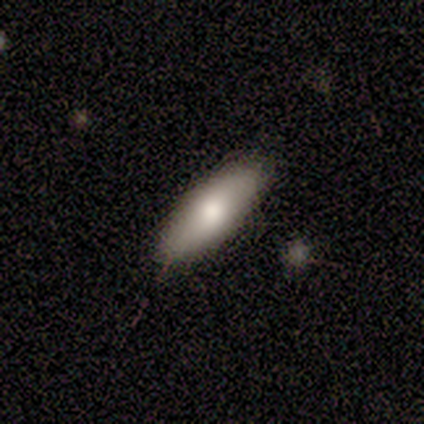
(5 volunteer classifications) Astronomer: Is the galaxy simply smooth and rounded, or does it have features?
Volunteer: smooth — 80%.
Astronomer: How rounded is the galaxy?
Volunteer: in between — 50%, tied with cigar-shaped at 50%.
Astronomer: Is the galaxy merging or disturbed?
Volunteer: none — 80%.